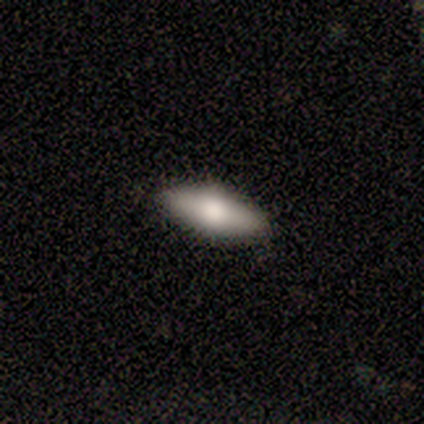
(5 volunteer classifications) This appears to be a smooth galaxy with no disk features (40%, tied with featured or disk) that is round (50%, tied with in between). Merging: none (100%).